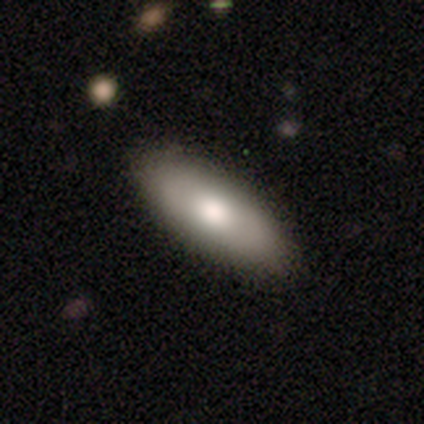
Smooth or featured? 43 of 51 (84%) said smooth. How rounded? 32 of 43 (74%) said in between. Merging? 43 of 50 (86%) said none.